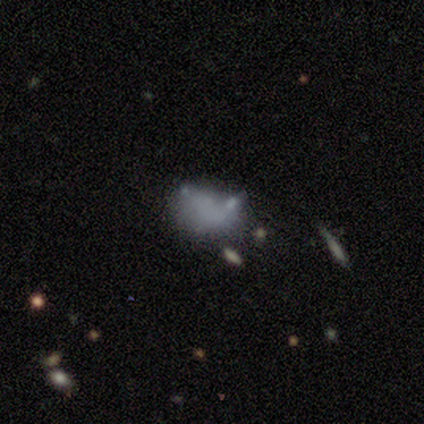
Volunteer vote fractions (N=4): Smooth or featured? 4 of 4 (100%) said smooth. How rounded? 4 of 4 (100%) said in between. Merging? 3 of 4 (75%) said minor disturbance.